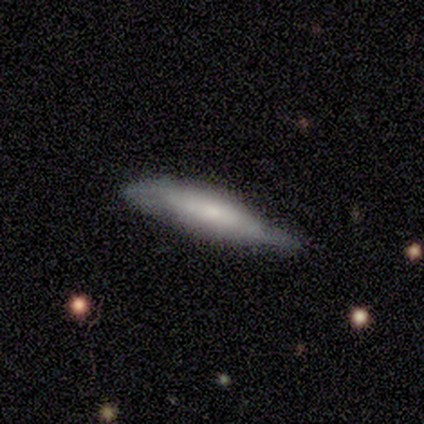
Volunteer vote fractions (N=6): smooth 67%, featured or disk 33%, star or artifact 0%. Down the decision tree: how rounded — in between (50%, tied with cigar-shaped); merging — none (67%).